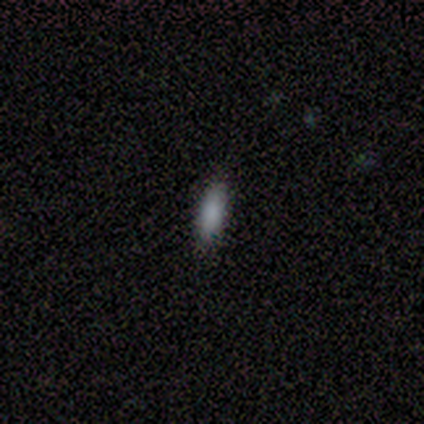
Overall: smooth (100%). How rounded: in between (100%). Merging: none (67%; minor disturbance 33%).